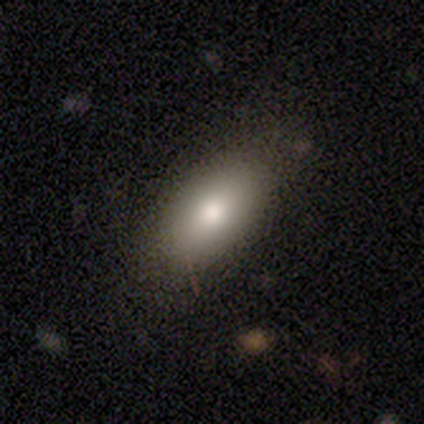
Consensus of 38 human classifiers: smooth-or-featured: smooth: 74% | featured or disk: 21% | star or artifact: 5%
  how-rounded: in between: 96% | cigar-shaped: 4% | round: 0%
  merging: none: 81% | minor disturbance: 14% | major disturbance: 6% | merger: 0%